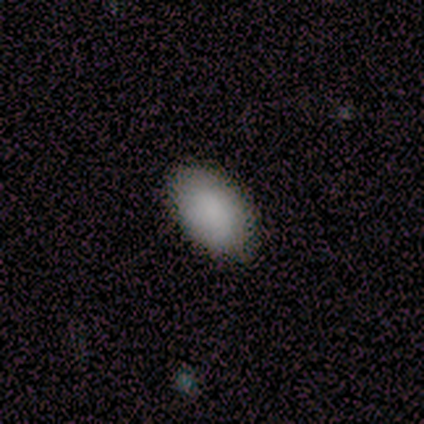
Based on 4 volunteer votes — This is clearly a smooth galaxy (100%). How rounded: clearly in between (100%). Merging: clearly none (100%).